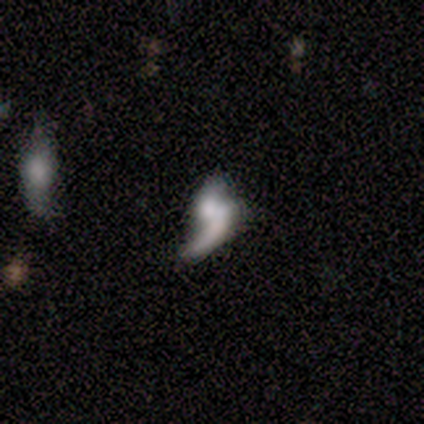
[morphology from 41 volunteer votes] A featured or disk galaxy (56%) with no bar (82%), 1 (62%) loose (69%) spiral arms (59%) and a small central bulge (41%). Merging: none (33%, tied with merger).